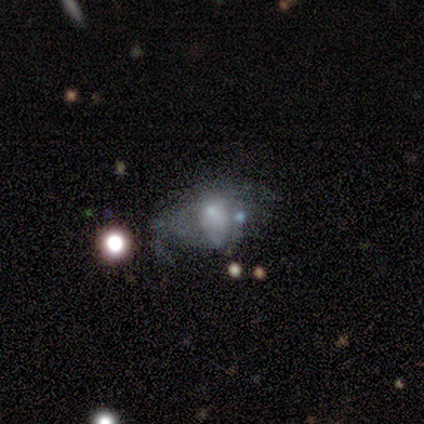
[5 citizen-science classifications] A smooth galaxy with no disk features (60%) that is in between round and cigar-shaped (67%). Merging: minor disturbance (40%, tied with merger).